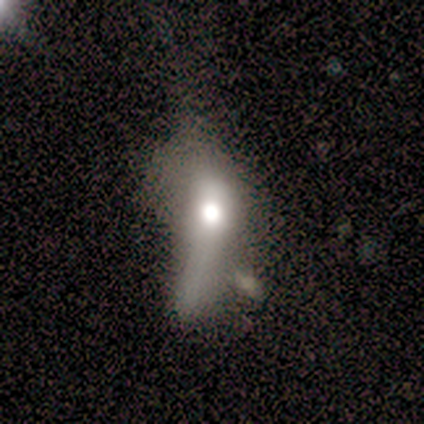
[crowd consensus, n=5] Overall: featured or disk (60%; smooth 40%). Edge-on disk: no (67%; yes 33%). Bar: no (100%). Spiral arms: no (100%). Bulge size: large (100%). Merging: minor disturbance (40%, tied with major disturbance).